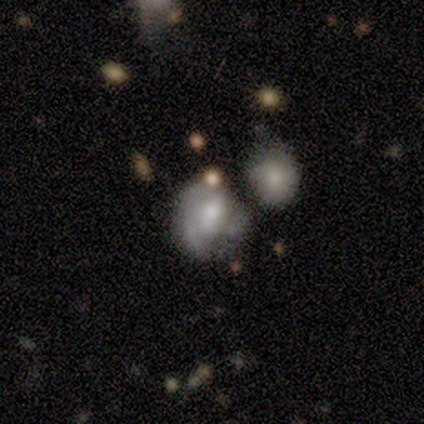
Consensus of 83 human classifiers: Smooth or featured?
  - featured or disk: 63% *
  - smooth: 27%
  - star or artifact: 11%
Edge-on disk?
  - no: 96% *
  - yes: 4%
Bar?
  - no: 52% *
  - weak: 28%
  - strong: 20%
Spiral arms?
  - yes: 56% *
  - no: 44%
Spiral winding?
  - tight: 39% * (tied)
  - medium: 39% * (tied)
  - loose: 21%
Spiral arm count?
  - 2: 32% * (tied)
  - 3: 32% * (tied)
  - can't tell: 25%
  - 1: 11%
  - 4: 0%
  - more than 4: 0%
Bulge size?
  - moderate: 46% *
  - small: 42%
  - large: 6%
  - none: 6%
  - dominant: 0%
Merging?
  - merger: 35% *
  - minor disturbance: 31%
  - none: 23%
  - major disturbance: 11%